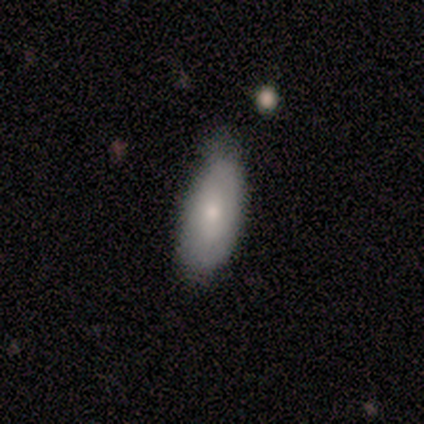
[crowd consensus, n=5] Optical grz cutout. It shows a smooth galaxy with no disk features (80%) that is in between round and cigar-shaped (100%). Merging: minor disturbance (60%).